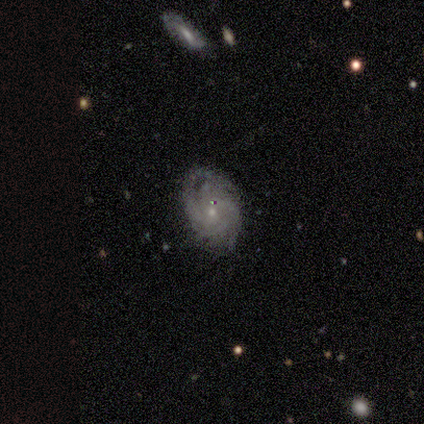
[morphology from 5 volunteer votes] Smooth or featured? featured or disk (100%)
Edge-on disk? no (100%)
Bar? no (100%)
Spiral arms? yes (80%)
Spiral winding? tight (75%)
Spiral arm count? 2 (25%, tied with 3, 4 and can't tell)
Bulge size? small (80%)
Merging? none (100%)